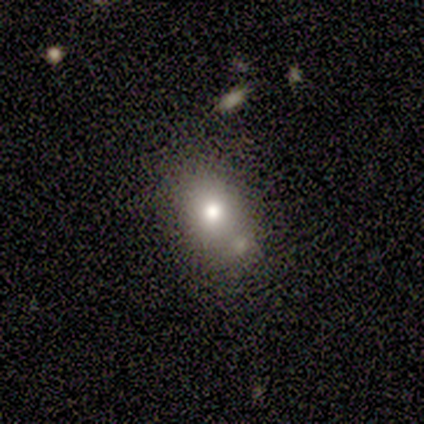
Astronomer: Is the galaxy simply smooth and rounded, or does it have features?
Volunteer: smooth — 100%.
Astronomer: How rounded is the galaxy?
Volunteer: in between — 80%.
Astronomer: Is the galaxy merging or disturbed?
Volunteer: none — 80%.